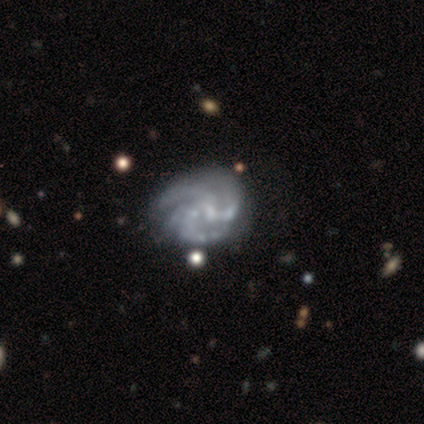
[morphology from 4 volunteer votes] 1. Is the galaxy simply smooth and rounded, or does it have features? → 100% featured or disk, 0% smooth, 0% star or artifact.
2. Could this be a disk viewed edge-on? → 100% no, 0% yes.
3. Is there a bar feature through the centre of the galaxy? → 50% weak (tied), 50% no (tied), 0% strong.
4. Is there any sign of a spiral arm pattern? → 75% yes, 25% no.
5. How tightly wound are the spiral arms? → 67% tight, 33% medium, 0% loose.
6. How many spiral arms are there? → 67% 4, 33% 3, 0% 1, 0% 2, 0% more than 4, 0% can't tell.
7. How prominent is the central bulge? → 50% none, 25% moderate, 25% small, 0% dominant, 0% large.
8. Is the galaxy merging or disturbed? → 50% none (tied), 50% minor disturbance (tied), 0% major disturbance, 0% merger.